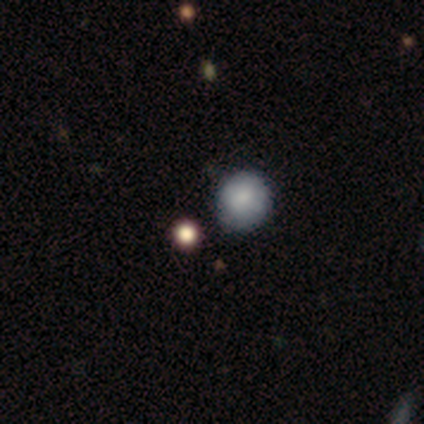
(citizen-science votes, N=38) This is possibly a smooth galaxy (58%). How rounded: clearly round (91%). Merging: likely none (71%).